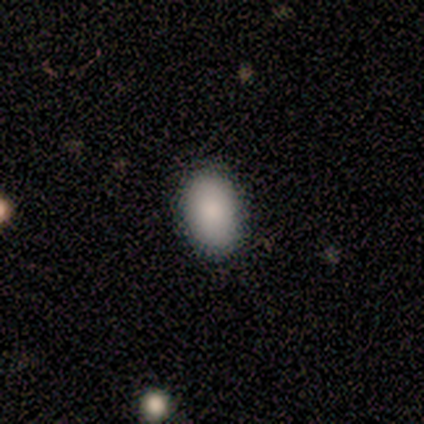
Smooth or featured?
  - smooth: 100% *
  - featured or disk: 0%
  - star or artifact: 0%
How rounded?
  - in between: 100% *
  - round: 0%
  - cigar-shaped: 0%
Merging?
  - none: 100% *
  - minor disturbance: 0%
  - major disturbance: 0%
  - merger: 0%